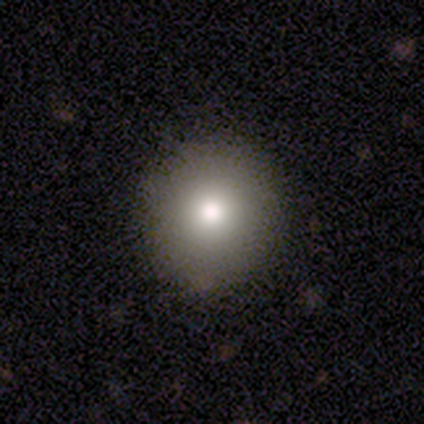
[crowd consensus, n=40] Overall: smooth (85%). How rounded: round (91%). Merging: none (89%).